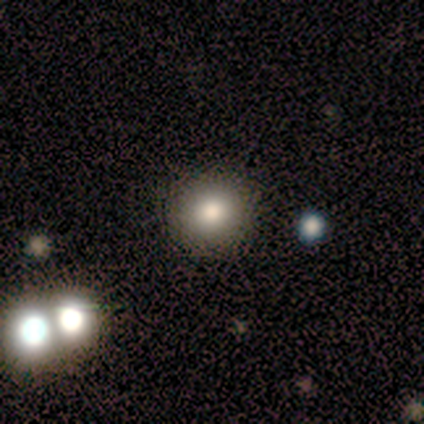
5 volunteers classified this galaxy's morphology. Smooth or featured: smooth — 100%
How rounded: round — 100%
Merging: none — 100%